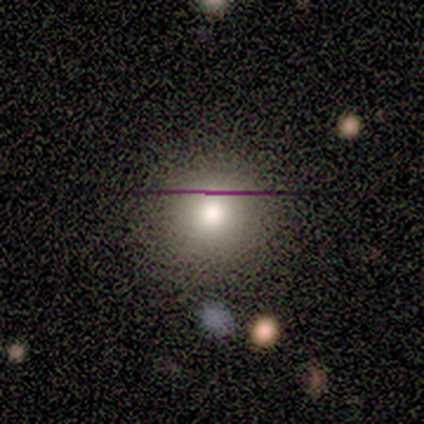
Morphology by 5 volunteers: smooth_or_featured: smooth (p=0.80) [alt: star or artifact p=0.20]
how_rounded: round (p=1.00)
merging: none (p=1.00)